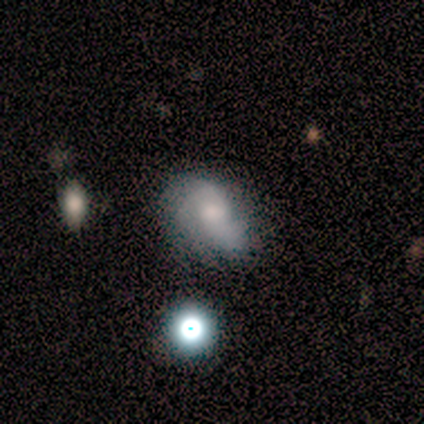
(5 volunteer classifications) A smooth galaxy with no disk features (80%) that is in between round and cigar-shaped (100%). Merging: none (50%, tied with minor disturbance).